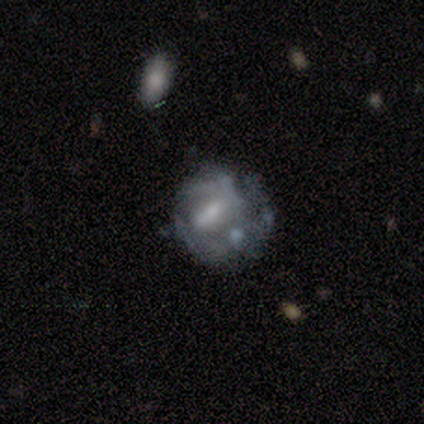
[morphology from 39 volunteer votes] Smooth or featured? featured or disk (85%)
Edge-on disk? no (100%)
Bar? no (36%)
Spiral arms? no (61%)
Bulge size? small (33%)
Merging? none (49%)